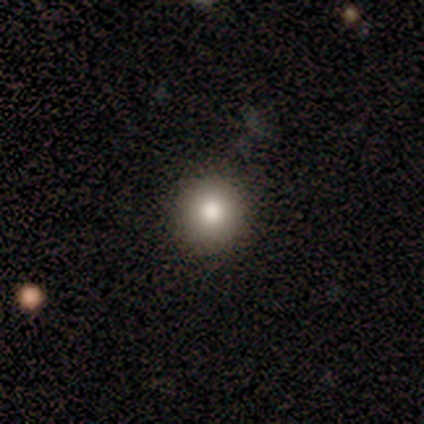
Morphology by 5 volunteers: Q: Smooth or featured?
A: smooth (80%); runner-up: featured or disk (20%)
Q: How rounded?
A: round (100%)
Q: Merging?
A: none (100%)